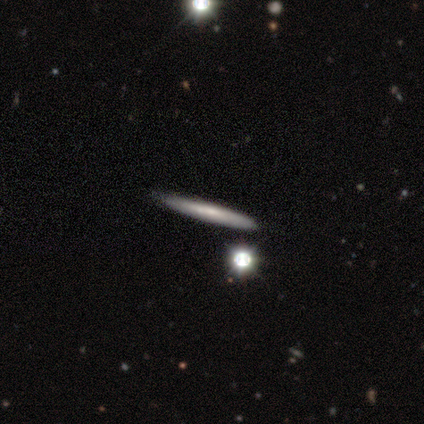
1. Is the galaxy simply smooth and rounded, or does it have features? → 50% smooth, 46% featured or disk, 4% star or artifact.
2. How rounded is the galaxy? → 95% cigar-shaped, 5% round, 0% in between.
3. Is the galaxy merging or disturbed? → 47% none, 9% merger, 3% minor disturbance, 0% major disturbance.